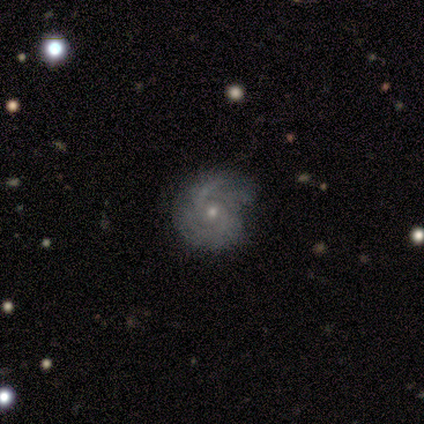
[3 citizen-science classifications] Q: Smooth or featured?
A: smooth (67%); runner-up: featured or disk (33%)
Q: How rounded?
A: round (100%)
Q: Merging?
A: none (67%); runner-up: minor disturbance (33%)